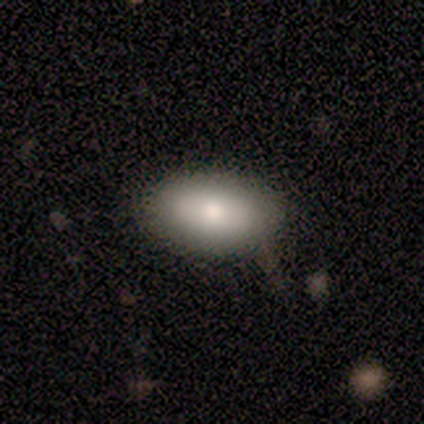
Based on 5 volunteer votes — Smooth or featured? 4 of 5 (80%) said smooth. How rounded? 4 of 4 (100%) said in between. Merging? 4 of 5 (80%) said none.